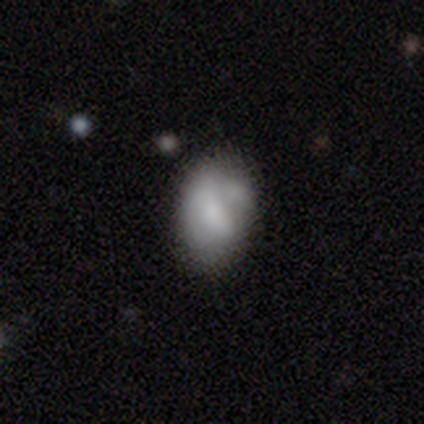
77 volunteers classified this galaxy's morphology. A smooth galaxy with no disk features (57%) that is in between round and cigar-shaped (91%). Merging: none (29%).